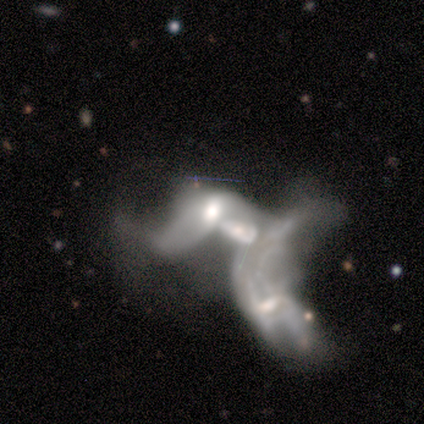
smooth_or_featured: smooth (p=0.40) [tied with: featured or disk p=0.40]
how_rounded: in between (p=1.00)
merging: merger (p=0.50) [alt: minor disturbance p=0.25]